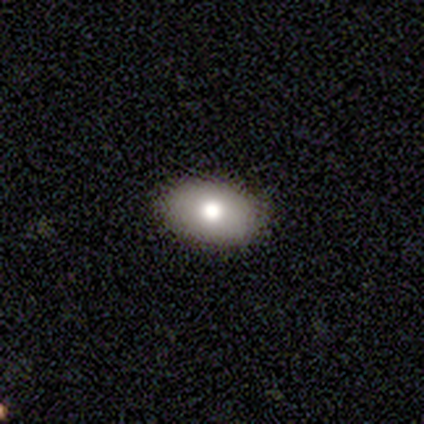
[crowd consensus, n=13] This is likely a smooth galaxy (77%). How rounded: clearly in between (90%). Merging: clearly none (92%).